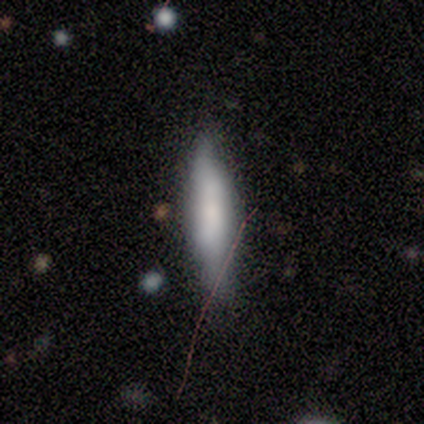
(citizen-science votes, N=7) This is likely a smooth galaxy (71%). How rounded: clearly cigar-shaped (100%). Merging: possibly none (57%).